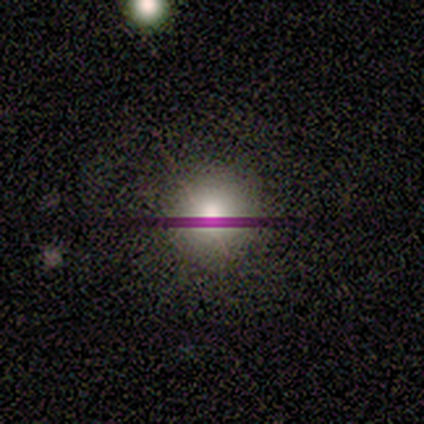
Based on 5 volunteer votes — smooth-or-featured: smooth: 80% | star or artifact: 20% | featured or disk: 0%
  how-rounded: round: 100% | in between: 0% | cigar-shaped: 0%
  merging: none: 100% | minor disturbance: 0% | major disturbance: 0% | merger: 0%